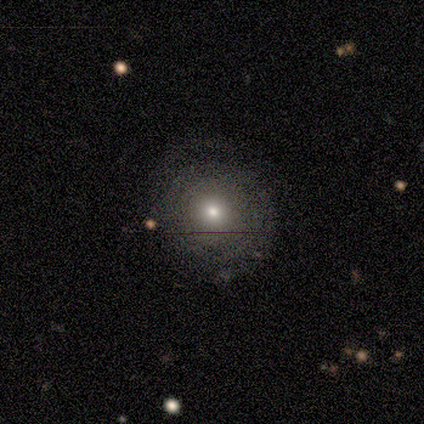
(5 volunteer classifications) Morphology: type=featured or disk (60%); edge-on=no (100%); bar=no (100%); spiral arms=yes (67%); winding=tight (100%); arm count=3 (50%, tied with can't tell); bulge=moderate (67%); merging=none (100%).